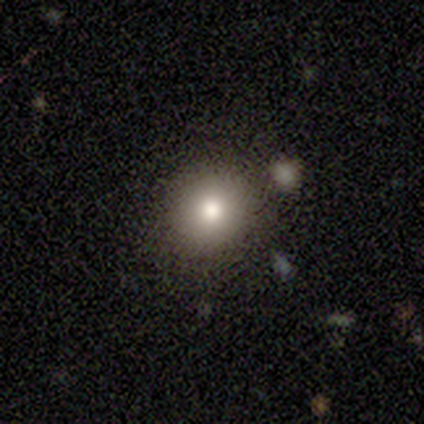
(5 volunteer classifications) This is clearly a smooth galaxy (100%). How rounded: clearly round (100%). Merging: clearly none (80%).